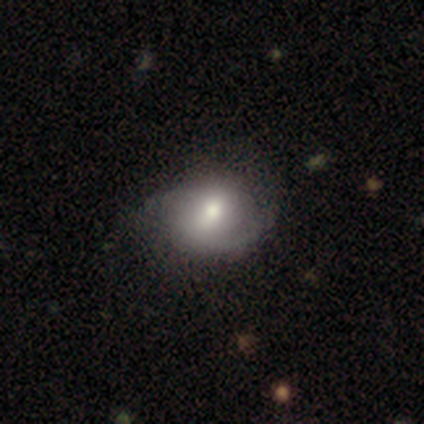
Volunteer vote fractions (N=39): smooth-or-featured: featured or disk: 51% | smooth: 49% | star or artifact: 0%
  disk-edge-on: no: 95% | yes: 5%
    bar: weak: 68% | strong: 16% | no: 16%
    has-spiral-arms: yes: 84% | no: 16%
      spiral-winding: medium: 56% | loose: 31% | tight: 12%
      spiral-arm-count: 2: 62% | can't tell: 25% | 1: 12% | 3: 0% | 4: 0% | more than 4: 0%
    bulge-size: moderate: 84% | large: 11% | small: 5% | dominant: 0% | none: 0%
  merging: none: 59% | minor disturbance: 15% | major disturbance: 5% | merger: 0%